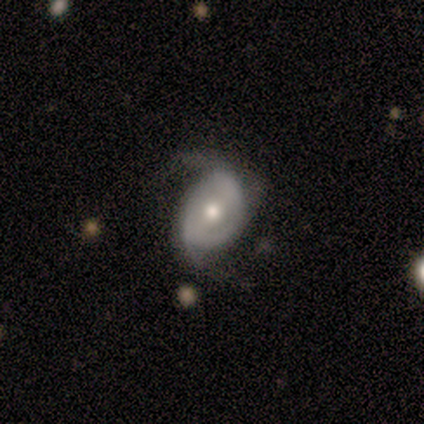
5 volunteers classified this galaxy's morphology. type=featured or disk (60%); edge-on=no (100%); bar=strong (67%); spiral arms=yes (100%); winding=loose (67%); arm count=2 (100%); bulge=moderate (67%); merging=none (60%).